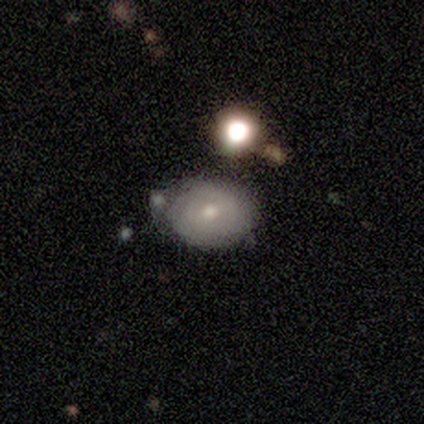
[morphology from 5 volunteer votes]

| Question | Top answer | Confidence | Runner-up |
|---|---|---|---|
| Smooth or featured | smooth | 60% | featured or disk (40%) |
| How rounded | in between | 67% | round (33%) |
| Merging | none | 80% | minor disturbance (20%) |